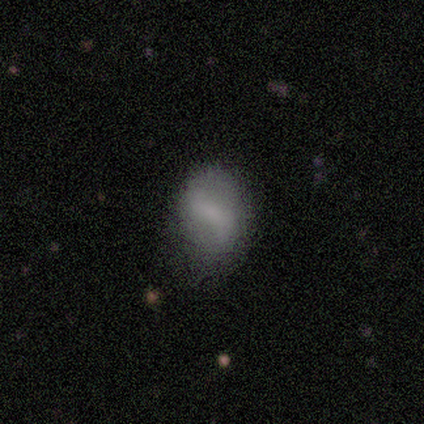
Overall: smooth (83%). How rounded: in between (100%). Merging: none (50%, tied with minor disturbance).